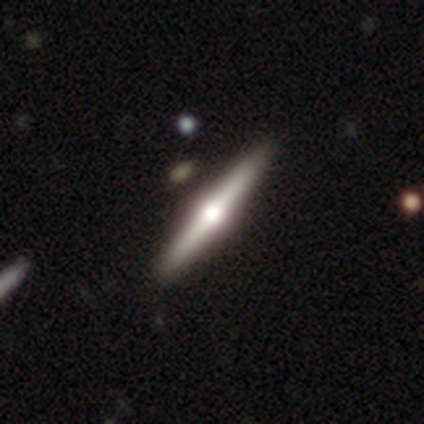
Smooth or featured? featured or disk (100%)
Edge-on disk? yes (100%)
Edge-on bulge? rounded (100%)
Merging? none (100%)